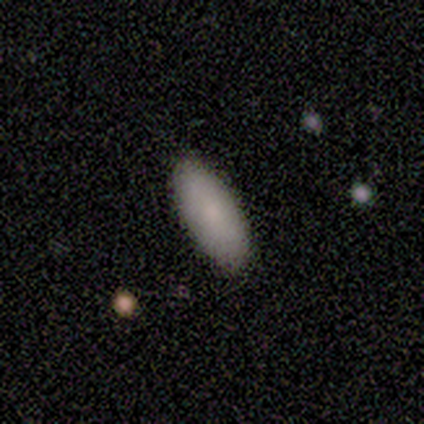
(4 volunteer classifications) A smooth galaxy with no disk features (75%) that is in between round and cigar-shaped (100%).

Vote fractions:
- Smooth or featured? smooth: 75% / featured or disk: 25% / star or artifact: 0%
- How rounded? in between: 100% / round: 0% / cigar-shaped: 0%
- Merging? none: 100% / minor disturbance: 0% / major disturbance: 0% / merger: 0%